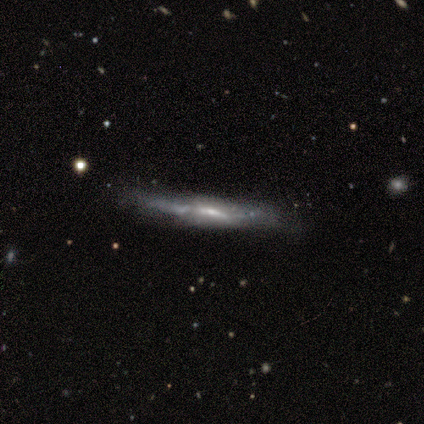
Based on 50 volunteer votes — smooth-or-featured: featured or disk: 72% | smooth: 24% | star or artifact: 4%
  disk-edge-on: yes: 89% | no: 11%
    edge-on-bulge: none: 38% (tied) | rounded: 38% (tied) | boxy: 25%
  merging: none: 62% | minor disturbance: 31% | merger: 4% | major disturbance: 2%